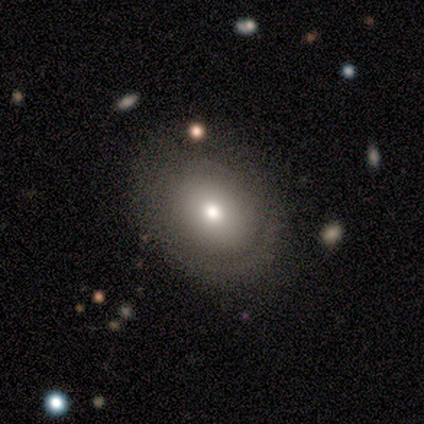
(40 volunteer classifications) A smooth galaxy with no disk features (78%) that is round (58%).

Vote fractions:
- Smooth or featured? smooth: 78% / featured or disk: 18% / star or artifact: 5%
- How rounded? round: 58% / in between: 39% / cigar-shaped: 3%
- Merging? none: 79% / minor disturbance: 16% / major disturbance: 3% / merger: 3%